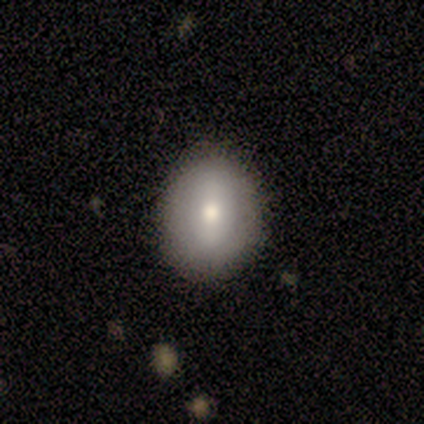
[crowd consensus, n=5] smooth 100%, featured or disk 0%, star or artifact 0%. Down the decision tree: how rounded — in between (80%); merging — none (60%).